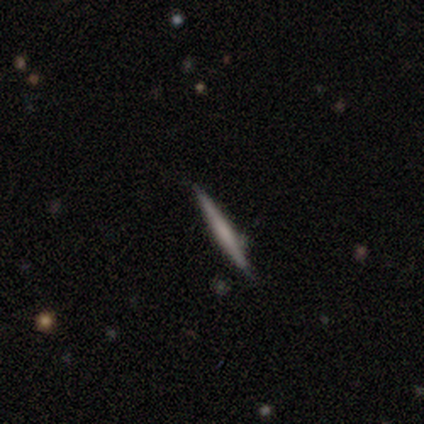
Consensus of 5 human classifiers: Q: Smooth or featured?
A: featured or disk (60%); runner-up: smooth (40%)
Q: Edge-on disk?
A: yes (100%)
Q: Edge-on bulge?
A: none (67%); runner-up: rounded (33%)
Q: Merging?
A: none (100%)